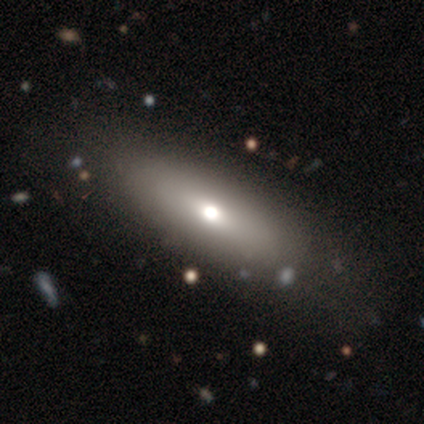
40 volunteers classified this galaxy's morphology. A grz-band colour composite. It shows a smooth galaxy with no disk features (57%) that is in between round and cigar-shaped (61%). Merging: none (88%).